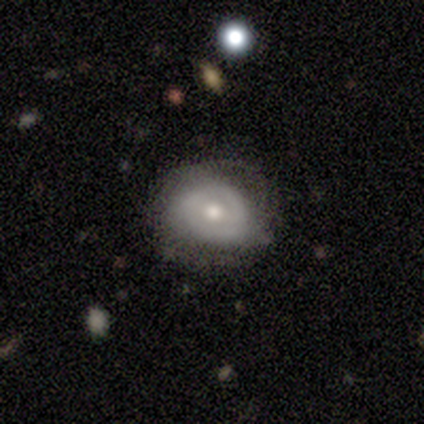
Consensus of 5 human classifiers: Smooth or featured? 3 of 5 (60%) said smooth. How rounded? 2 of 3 (67%) said round. Merging? 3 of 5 (60%) said none.